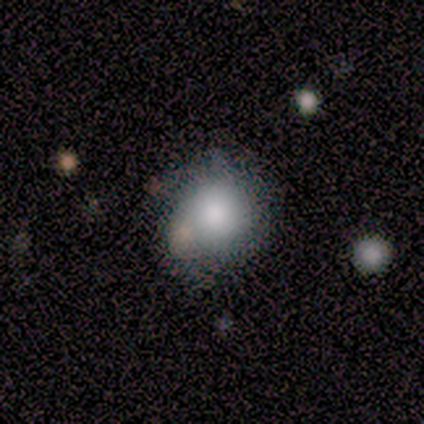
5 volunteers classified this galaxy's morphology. Smooth or featured: smooth — 80% (featured or disk — 20%)
How rounded: round — 100%
Merging: none — 60% (minor disturbance — 20%)